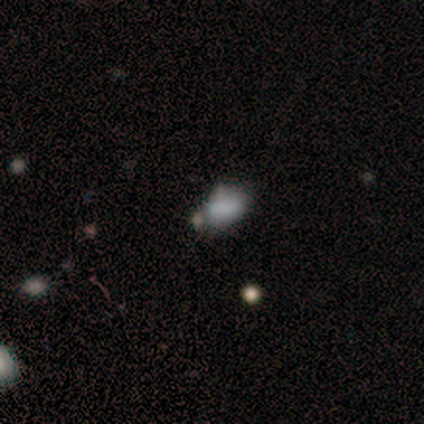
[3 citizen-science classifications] Smooth or featured?
  - smooth: 67% *
  - featured or disk: 33%
  - star or artifact: 0%
How rounded?
  - round: 50% * (tied)
  - in between: 50% * (tied)
  - cigar-shaped: 0%
Merging?
  - none: 67% *
  - merger: 33%
  - minor disturbance: 0%
  - major disturbance: 0%